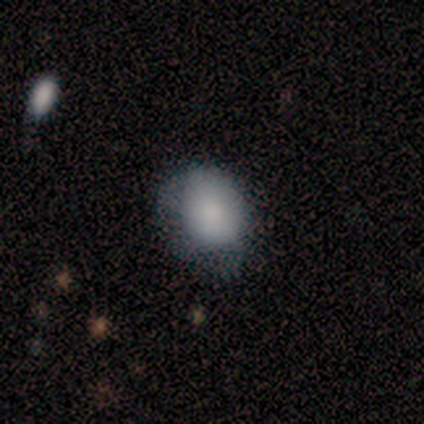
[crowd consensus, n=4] smooth-or-featured: smooth: 100% | featured or disk: 0% | star or artifact: 0%
  how-rounded: in between: 100% | round: 0% | cigar-shaped: 0%
  merging: minor disturbance: 50% | none: 25% | major disturbance: 25% | merger: 0%